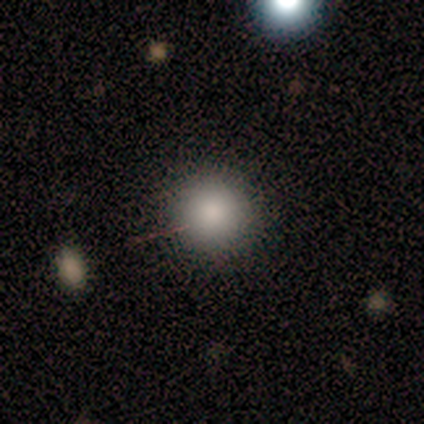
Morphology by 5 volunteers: Smooth or featured: smooth — 80% (star or artifact — 20%)
How rounded: round — 100%
Merging: none — 100%